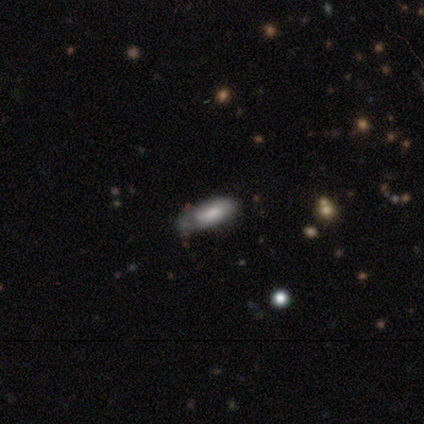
Volunteers were most divided on "merging": none: 62%, minor disturbance: 31%, major disturbance: 8%, merger: 0%. More confident: how rounded — in between (88%); smooth or featured — smooth (80%).